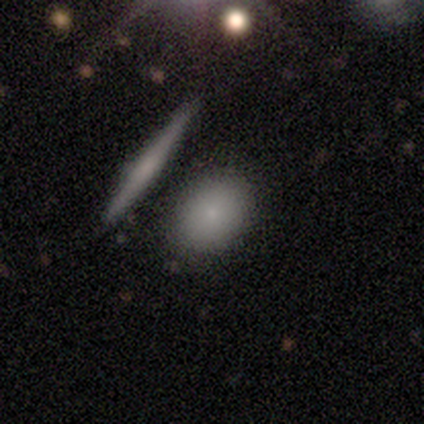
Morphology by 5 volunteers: A smooth galaxy with no disk features (100%) that is in between round and cigar-shaped (80%).

Vote fractions:
- Smooth or featured? smooth: 100% / featured or disk: 0% / star or artifact: 0%
- How rounded? in between: 80% / round: 20% / cigar-shaped: 0%
- Merging? none: 100% / minor disturbance: 0% / major disturbance: 0% / merger: 0%